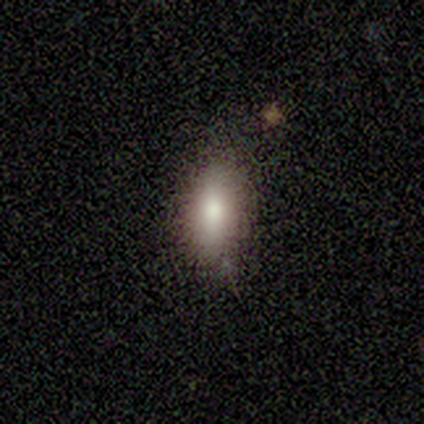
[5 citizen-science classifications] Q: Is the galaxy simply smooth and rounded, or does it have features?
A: smooth — 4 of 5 (80%).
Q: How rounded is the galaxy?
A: in between — 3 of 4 (75%).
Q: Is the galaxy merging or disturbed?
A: none — 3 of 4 (75%).